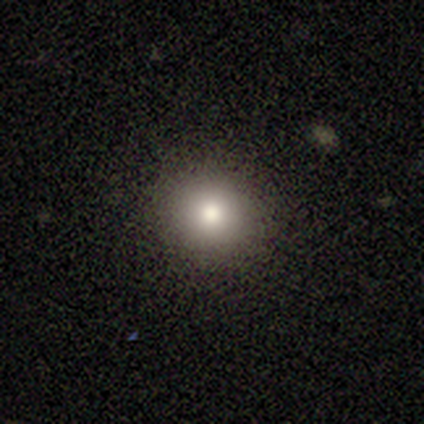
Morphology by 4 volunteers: smooth 100%, featured or disk 0%, star or artifact 0%. Down the decision tree: how rounded — round (100%); merging — none (75%).